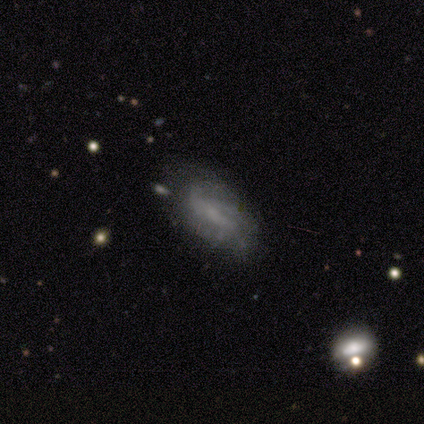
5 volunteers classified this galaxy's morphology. Volunteers were most divided on "spiral winding" (2-way tie): tight: 50%, loose: 50%, medium: 0%; "spiral arm count" (2-way tie): 2: 50%, 3: 50%, 1: 0%, 4: 0%, more than 4: 0%, can't tell: 0%. More confident: edge-on disk — no (100%); bar — no (67%); spiral arms — yes (67%); bulge size — none (67%); smooth or featured — featured or disk (60%); merging — minor disturbance (60%).